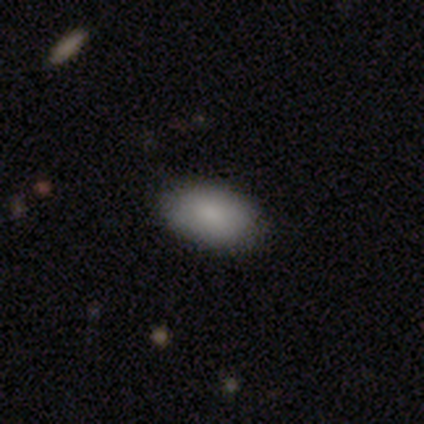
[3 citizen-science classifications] Smooth or featured? 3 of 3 (100%) said smooth. How rounded? 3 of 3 (100%) said in between. Merging? 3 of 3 (100%) said none.